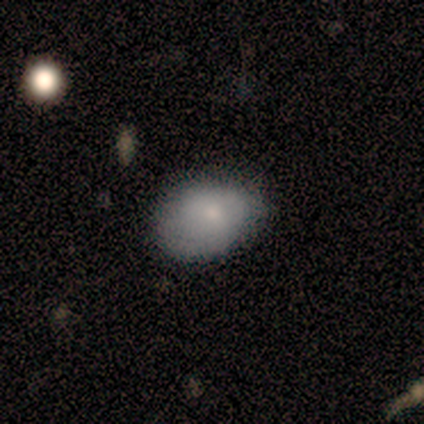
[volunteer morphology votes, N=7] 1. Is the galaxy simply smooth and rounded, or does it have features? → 71% smooth, 29% featured or disk, 0% star or artifact.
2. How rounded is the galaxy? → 100% in between, 0% round, 0% cigar-shaped.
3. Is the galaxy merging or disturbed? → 57% none, 43% minor disturbance, 0% major disturbance, 0% merger.